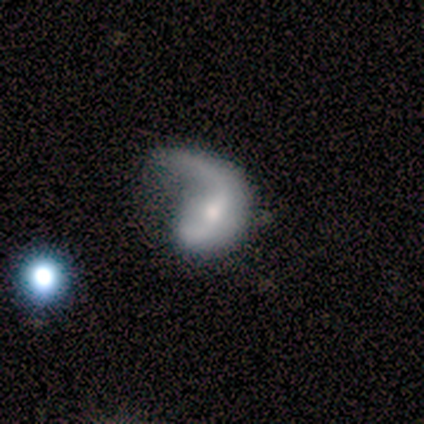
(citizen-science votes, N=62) A featured or disk galaxy (71%) with no bar (44%), 1 (77%) loose (79%) spiral arms (91%) and a moderate central bulge (47%, tied with small).

Vote fractions:
- Smooth or featured? featured or disk: 71% / smooth: 24% / star or artifact: 5%
- Edge-on disk? no: 98% / yes: 2%
- Bar? no: 44% / weak: 35% / strong: 21%
- Spiral arms? yes: 91% / no: 9%
- Spiral winding? loose: 79% / medium: 13% / tight: 8%
- Spiral arm count? 1: 77% / 2: 18% / can't tell: 5% / 3: 0% / 4: 0% / more than 4: 0%
- Bulge size? moderate: 47% (tied) / small: 47% (tied) / large: 5% / none: 2% / dominant: 0%
- Merging? major disturbance: 64% / none: 19% / minor disturbance: 15% / merger: 2%